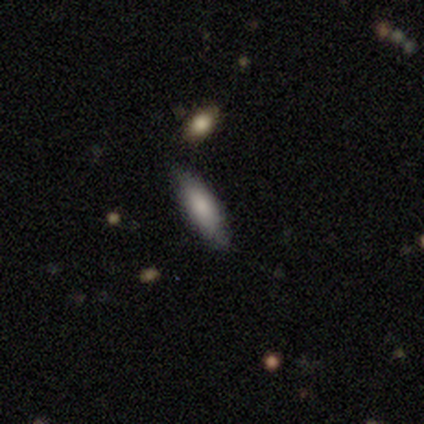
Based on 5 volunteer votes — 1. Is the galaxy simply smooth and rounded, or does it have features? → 100% smooth, 0% featured or disk, 0% star or artifact.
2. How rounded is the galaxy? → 60% in between, 40% cigar-shaped, 0% round.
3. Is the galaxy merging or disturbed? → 60% none, 40% minor disturbance, 0% major disturbance, 0% merger.